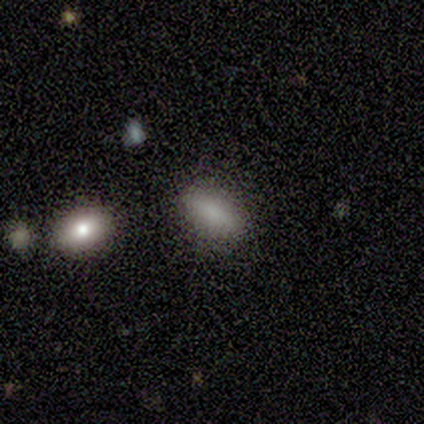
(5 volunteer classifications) Smooth or featured? smooth (60%)
How rounded? in between (100%)
Merging? none (100%)